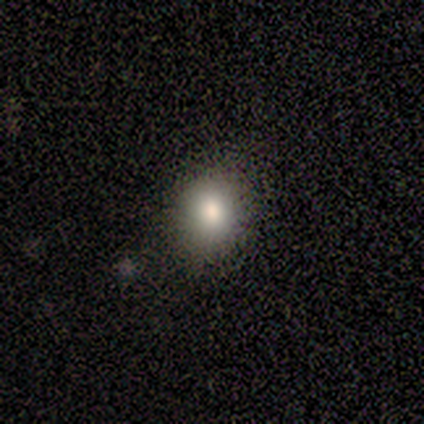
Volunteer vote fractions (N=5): Morphology: type=smooth (80%); roundness=round (100%); merging=none (100%).